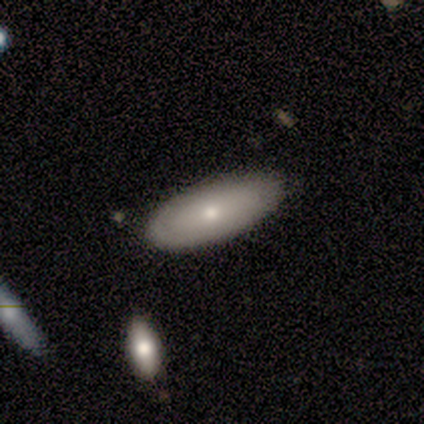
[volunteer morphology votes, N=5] A featured or disk galaxy (60%) with no bar (100%), no spiral arms (100%) and a moderate central bulge (50%, tied with small). Merging: none (75%).